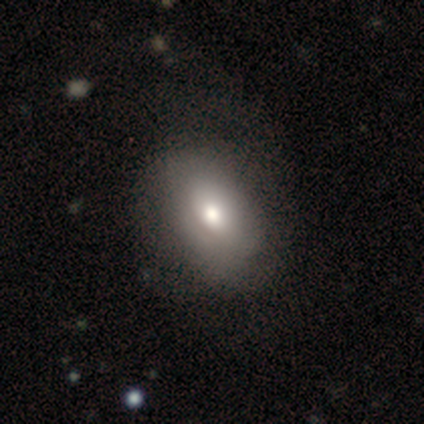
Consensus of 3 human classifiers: Morphology: type=smooth (100%); roundness=in between (100%); merging=minor disturbance (67%).